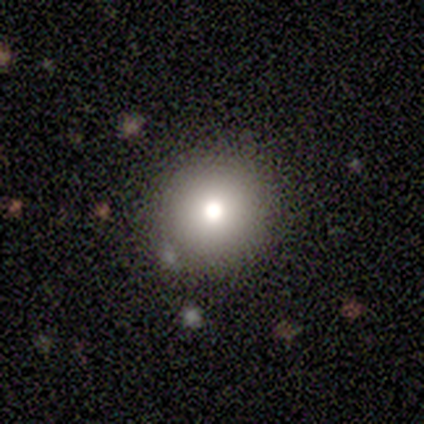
Smooth or featured? smooth (80%)
How rounded? round (100%)
Merging? none (100%)